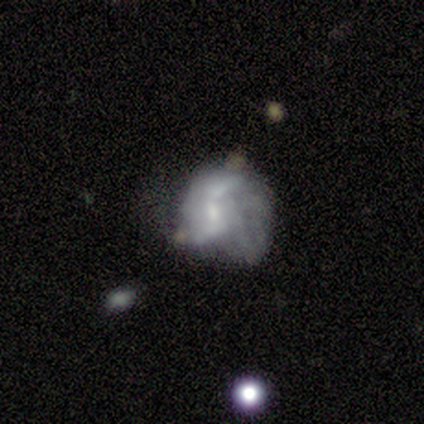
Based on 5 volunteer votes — Q: Smooth or featured?
A: featured or disk (80%); runner-up: smooth (20%)
Q: Edge-on disk?
A: no (100%)
Q: Bar?
A: strong (50%); runner-up: weak (25%)
Q: Spiral arms?
A: yes (50%); tied with: no (50%)
Q: Spiral winding?
A: loose (100%)
Q: Spiral arm count?
A: 2 (100%)
Q: Bulge size?
A: small (75%); runner-up: large (25%)
Q: Merging?
A: major disturbance (60%); runner-up: none (20%)